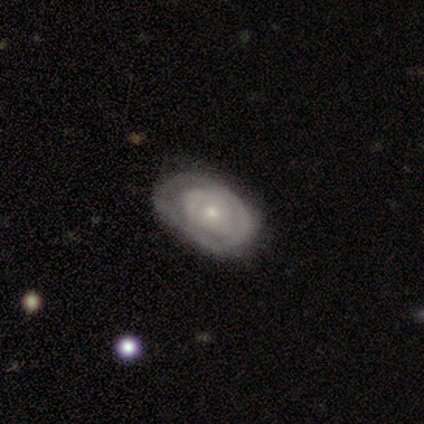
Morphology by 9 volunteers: featured or disk 56%, smooth 33%, star or artifact 11%. Down the decision tree: edge-on disk — no (100%); bar — no (80%); spiral arms — yes (60%); spiral arm count — can't tell (67%); spiral winding — tight (67%); bulge size — small (100%); merging — none (62%).